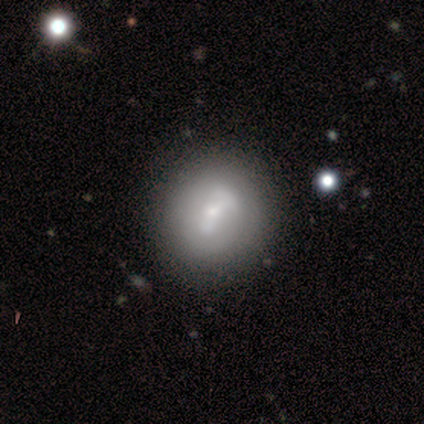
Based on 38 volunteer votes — Volunteers were most divided on "bar": strong: 36%, weak: 32%, no: 32%. More confident: edge-on disk — no (100%); spiral arms — no (59%); smooth or featured — featured or disk (58%); merging — none (54%); bulge size — small (50%).